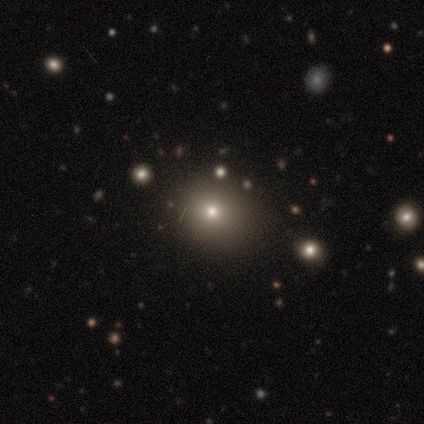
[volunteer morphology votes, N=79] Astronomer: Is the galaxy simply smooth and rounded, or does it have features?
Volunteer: smooth — 75%.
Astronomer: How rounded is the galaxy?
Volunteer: round — 85%.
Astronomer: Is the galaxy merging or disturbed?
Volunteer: none — 40%.